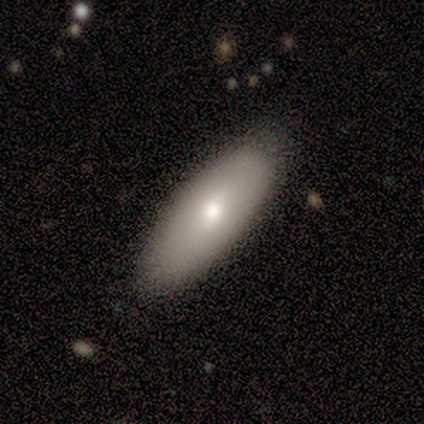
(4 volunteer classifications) This is likely a smooth galaxy (75%). How rounded: clearly in between (100%). Merging: likely none (75%).